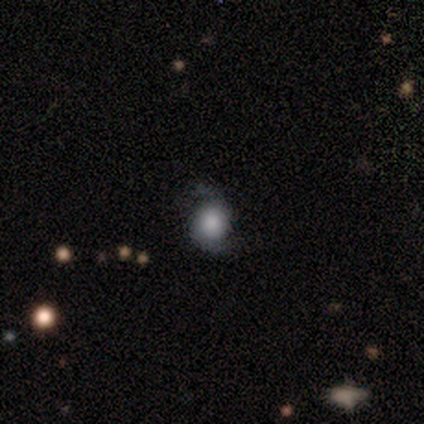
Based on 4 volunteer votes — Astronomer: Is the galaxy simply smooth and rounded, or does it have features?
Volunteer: featured or disk — 75%.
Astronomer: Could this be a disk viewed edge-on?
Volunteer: no — 100%.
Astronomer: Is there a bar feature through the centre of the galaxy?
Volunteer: no — 100%.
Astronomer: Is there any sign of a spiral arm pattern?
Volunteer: yes — 67%.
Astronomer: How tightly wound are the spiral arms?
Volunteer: tight — 50%, tied with medium at 50%.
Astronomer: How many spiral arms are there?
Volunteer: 2 — 100%.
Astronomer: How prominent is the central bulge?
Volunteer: large — 33%, tied with moderate and none at 33%.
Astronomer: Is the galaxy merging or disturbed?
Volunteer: none — 100%.